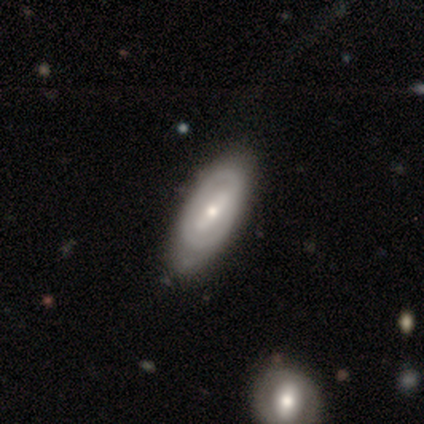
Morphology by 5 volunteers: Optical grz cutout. It shows a featured or disk galaxy (80%) with a weak bar (50%, tied with no), no spiral arms (75%) and a small central bulge (100%). Merging: none (100%).